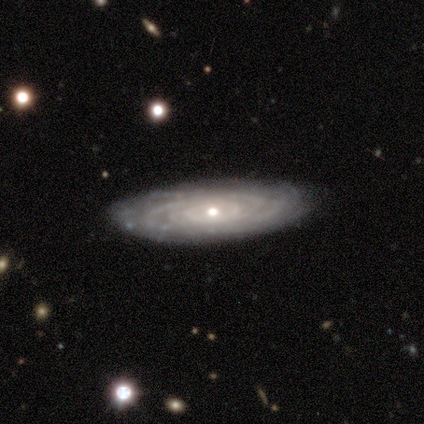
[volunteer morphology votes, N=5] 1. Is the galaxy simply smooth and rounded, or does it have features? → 80% featured or disk, 20% smooth, 0% star or artifact.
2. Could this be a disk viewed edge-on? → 100% no, 0% yes.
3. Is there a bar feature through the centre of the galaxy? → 100% no, 0% strong, 0% weak.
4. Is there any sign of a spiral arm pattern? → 100% yes, 0% no.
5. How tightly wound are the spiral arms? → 100% tight, 0% medium, 0% loose.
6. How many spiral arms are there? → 100% can't tell, 0% 1, 0% 2, 0% 3, 0% 4, 0% more than 4.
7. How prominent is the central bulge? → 75% small, 25% moderate, 0% dominant, 0% large, 0% none.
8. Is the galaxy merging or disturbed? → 80% none, 20% minor disturbance, 0% major disturbance, 0% merger.